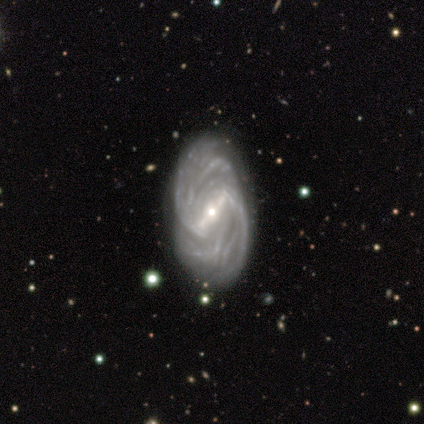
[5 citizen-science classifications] Morphology: type=featured or disk (100%); edge-on=no (80%); bar=strong (100%); spiral arms=yes (100%); winding=tight (50%, tied with medium); arm count=more than 4 (75%); bulge=moderate (50%); merging=none (60%).